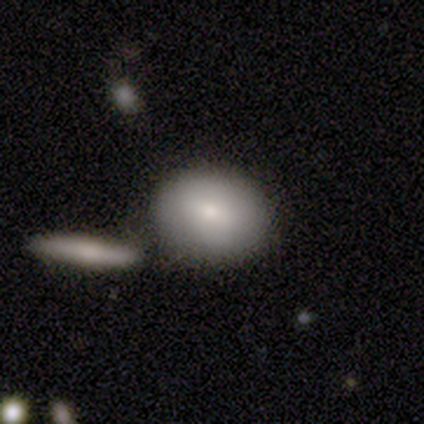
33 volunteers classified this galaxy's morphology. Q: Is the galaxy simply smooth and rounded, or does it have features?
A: smooth — 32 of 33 (97%).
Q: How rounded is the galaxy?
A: round — 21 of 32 (66%).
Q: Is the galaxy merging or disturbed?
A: merger — 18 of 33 (55%).